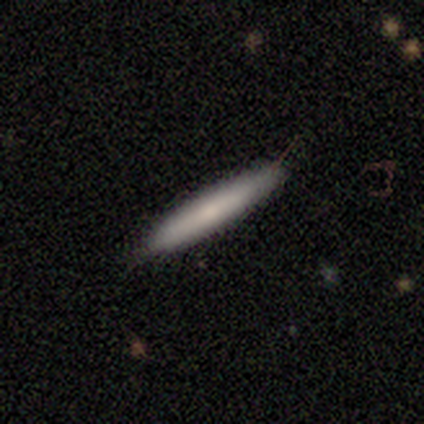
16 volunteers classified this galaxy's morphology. smooth 88%, featured or disk 12%, star or artifact 0%. Down the decision tree: how rounded — cigar-shaped (100%); merging — none (81%).